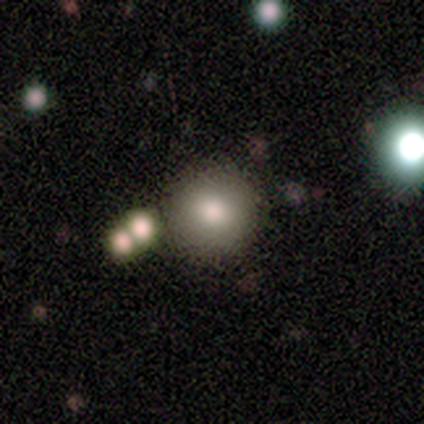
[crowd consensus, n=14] smooth-or-featured: smooth: 86% | star or artifact: 14% | featured or disk: 0%
  how-rounded: round: 92% | in between: 8% | cigar-shaped: 0%
  merging: none: 83% | merger: 17% | minor disturbance: 0% | major disturbance: 0%